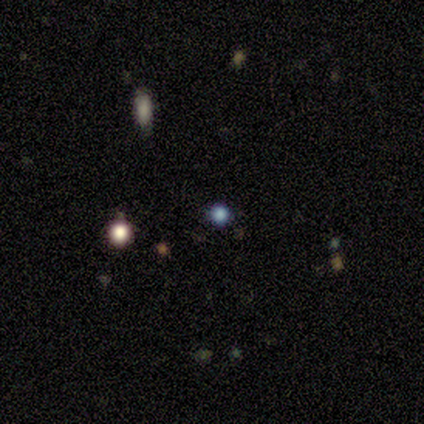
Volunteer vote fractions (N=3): Smooth or featured: smooth — 33% (tied with featured or disk — 33%; star or artifact — 33%)
How rounded: round — 100%
Merging: none — 100%